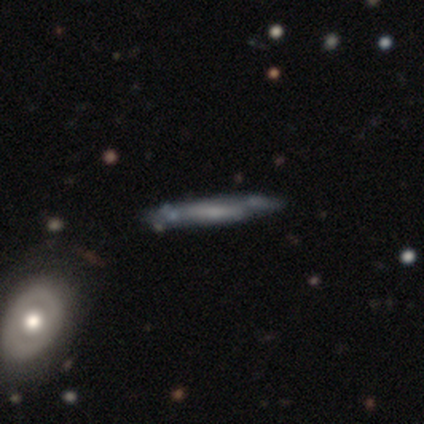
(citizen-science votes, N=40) A featured or disk galaxy (57%) viewed edge-on (70%) with no central bulge (69%). Merging: none (68%).